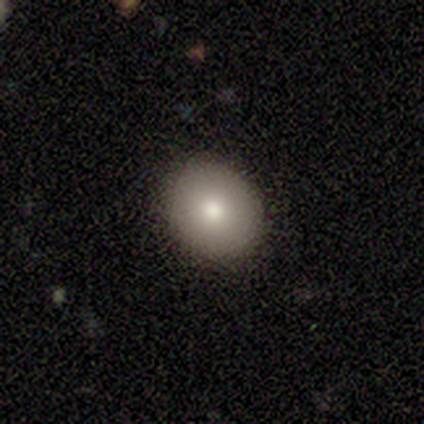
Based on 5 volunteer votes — A smooth galaxy with no disk features (100%) that is round (80%). Merging: none (80%).